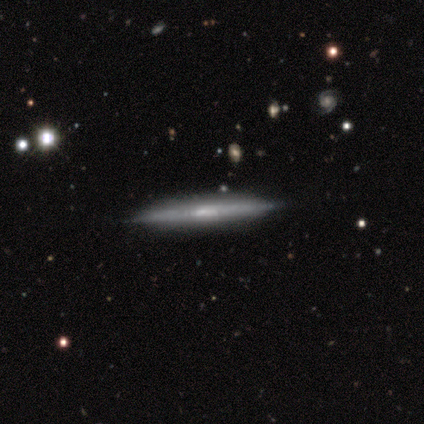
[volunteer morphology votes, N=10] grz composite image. It shows a featured or disk galaxy (90%) viewed edge-on (100%) with a boxy central bulge (44%). Merging: none (90%).